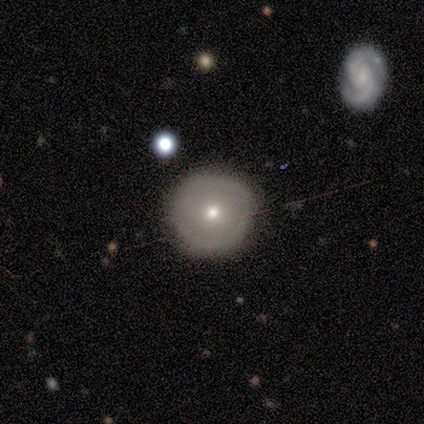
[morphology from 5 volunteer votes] Overall: smooth (60%; featured or disk 40%). How rounded: round (67%; in between 33%). Merging: none (60%; minor disturbance 40%).